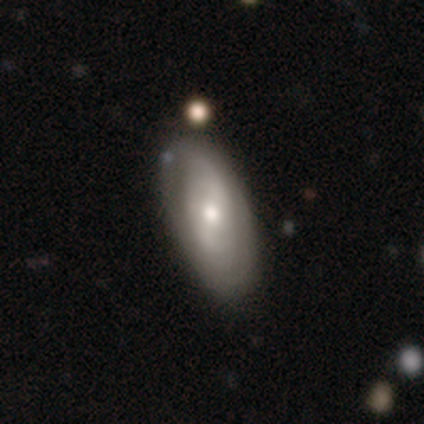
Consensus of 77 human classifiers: Smooth or featured?
  - featured or disk: 64% *
  - smooth: 34%
  - star or artifact: 3%
Edge-on disk?
  - no: 92% *
  - yes: 8%
Bar?
  - weak: 40% * (tied)
  - no: 40% * (tied)
  - strong: 20%
Spiral arms?
  - yes: 62% *
  - no: 38%
Spiral winding?
  - medium: 39% *
  - tight: 32%
  - loose: 29%
Spiral arm count?
  - can't tell: 61% *
  - 2: 36%
  - 3: 4%
  - 1: 0%
  - 4: 0%
  - more than 4: 0%
Bulge size?
  - moderate: 62% *
  - small: 24%
  - large: 11%
  - none: 2%
  - dominant: 0%
Merging?
  - none: 44% *
  - minor disturbance: 12%
  - merger: 4%
  - major disturbance: 0%